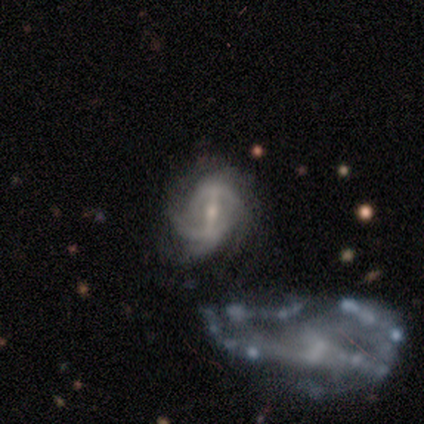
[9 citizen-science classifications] A featured or disk galaxy (100%) with a strong bar (56%), 2 (33%, tied with 3) tight (56%) spiral arms (100%) and a small central bulge (67%).

Vote fractions:
- Smooth or featured? featured or disk: 100% / smooth: 0% / star or artifact: 0%
- Edge-on disk? no: 100% / yes: 0%
- Bar? strong: 56% / no: 33% / weak: 11%
- Spiral arms? yes: 100% / no: 0%
- Spiral winding? tight: 56% / medium: 44% / loose: 0%
- Spiral arm count? 2: 33% (tied) / 3: 33% (tied) / 4: 22% / can't tell: 11% / 1: 0% / more than 4: 0%
- Bulge size? small: 67% / moderate: 33% / dominant: 0% / large: 0% / none: 0%
- Merging? none: 56% / minor disturbance: 22% / major disturbance: 11% / merger: 11%